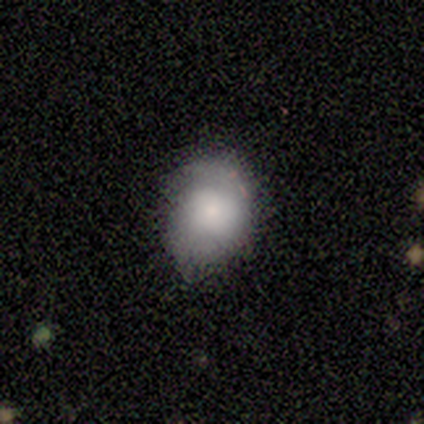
Smooth or featured: smooth — 60% (featured or disk — 20%)
How rounded: in between — 67% (round — 33%)
Merging: none — 100%